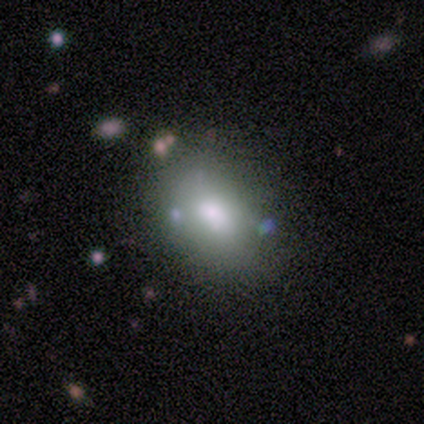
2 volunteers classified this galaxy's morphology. Volunteers were most divided on "smooth or featured" (2-way tie): smooth: 50%, star or artifact: 50%, featured or disk: 0%. More confident: how rounded — in between (100%); merging — none (100%).